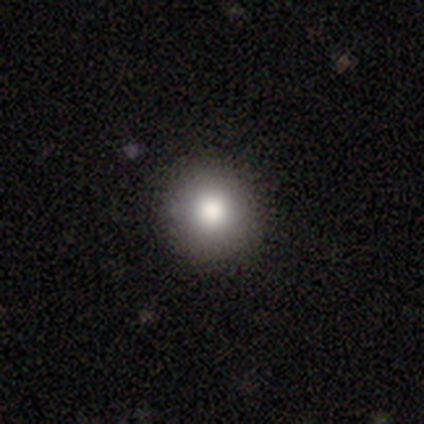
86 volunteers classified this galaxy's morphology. smooth-or-featured: smooth: 78% | featured or disk: 13% | star or artifact: 9%
  how-rounded: round: 93% | in between: 6% | cigar-shaped: 1%
  merging: none: 91% | minor disturbance: 6% | major disturbance: 3% | merger: 0%